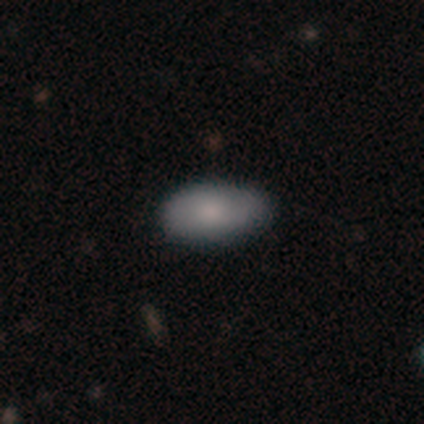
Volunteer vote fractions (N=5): smooth-or-featured: smooth: 100% | featured or disk: 0% | star or artifact: 0%
  how-rounded: in between: 100% | round: 0% | cigar-shaped: 0%
  merging: none: 60% | minor disturbance: 40% | major disturbance: 0% | merger: 0%